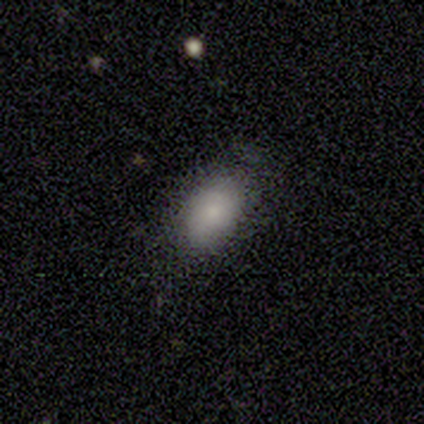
Volunteers were most divided on "merging": minor disturbance: 60%, none: 40%, major disturbance: 0%, merger: 0%. More confident: smooth or featured — smooth (80%); how rounded — in between (75%).